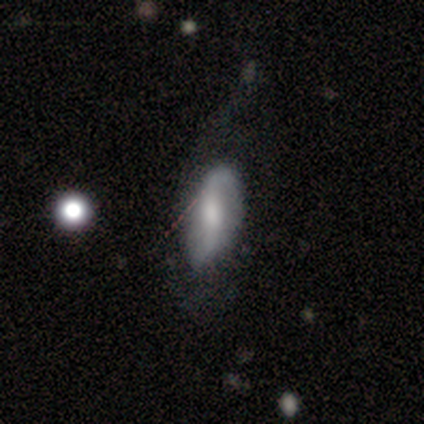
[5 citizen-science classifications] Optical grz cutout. It shows a featured or disk galaxy (60%) with a strong bar (67%), 2 (100%) tight (67%) spiral arms (100%) and a small central bulge (67%). Merging: none (80%).